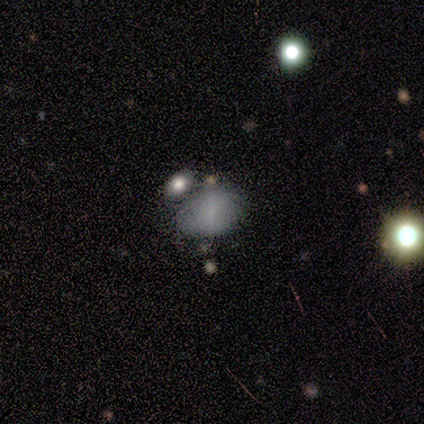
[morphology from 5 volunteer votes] A smooth galaxy with no disk features (60%) that is in between round and cigar-shaped (67%).

Vote fractions:
- Smooth or featured? smooth: 60% / featured or disk: 40% / star or artifact: 0%
- How rounded? in between: 67% / round: 33% / cigar-shaped: 0%
- Merging? none: 40% / minor disturbance: 20% / major disturbance: 20% / merger: 20%